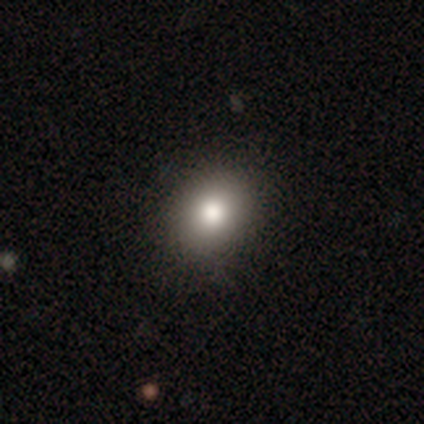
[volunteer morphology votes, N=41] Volunteers were most divided on "how rounded": round: 56%, in between: 44%, cigar-shaped: 0%. More confident: smooth or featured — smooth (83%); merging — none (74%).